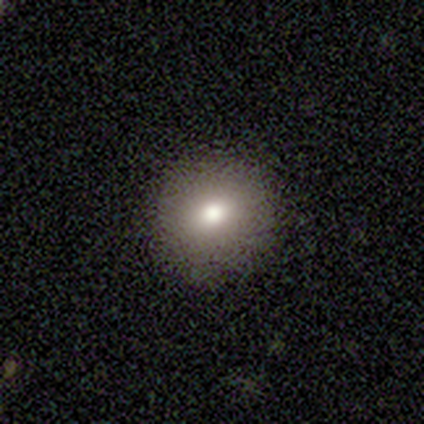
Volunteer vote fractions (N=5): Q: Smooth or featured?
A: smooth (80%); runner-up: featured or disk (20%)
Q: How rounded?
A: round (100%)
Q: Merging?
A: none (80%); runner-up: minor disturbance (20%)